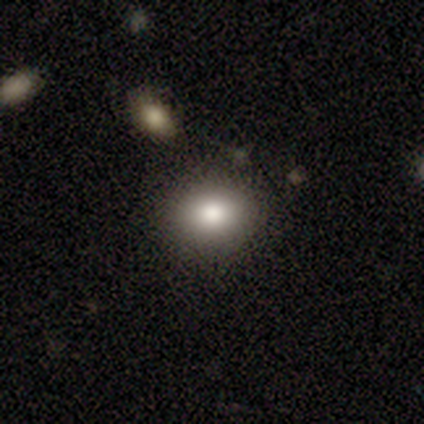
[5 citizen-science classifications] Morphology: type=smooth (100%); roundness=in between (80%); merging=none (60%).